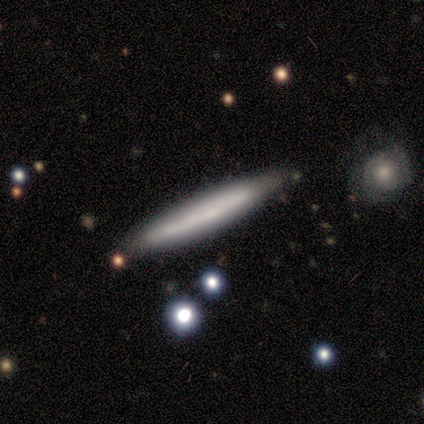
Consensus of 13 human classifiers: Smooth or featured?
  - smooth: 54% *
  - featured or disk: 46%
  - star or artifact: 0%
How rounded?
  - cigar-shaped: 100% *
  - round: 0%
  - in between: 0%
Merging?
  - none: 92% *
  - minor disturbance: 8%
  - major disturbance: 0%
  - merger: 0%